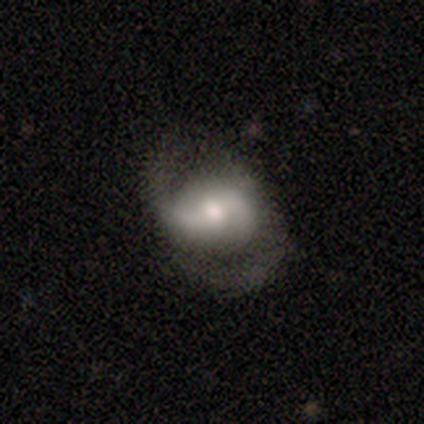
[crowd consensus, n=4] smooth_or_featured: featured or disk (p=0.75) [alt: smooth p=0.25]
disk_edge_on: no (p=1.00)
bar: strong (p=0.33) [tied with: weak p=0.33, no p=0.33]
has_spiral_arms: yes (p=1.00)
spiral_winding: loose (p=0.67) [alt: medium p=0.33]
spiral_arm_count: 2 (p=1.00)
bulge_size: large (p=0.33) [tied with: moderate p=0.33, small p=0.33]
merging: none (p=0.75) [alt: merger p=0.25]